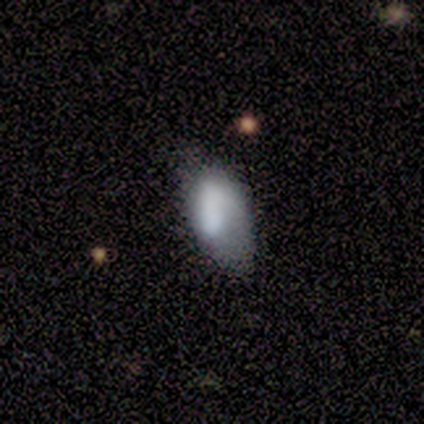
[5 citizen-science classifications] This is likely a smooth galaxy (60%). How rounded: clearly in between (100%). Merging: likely minor disturbance (67%).